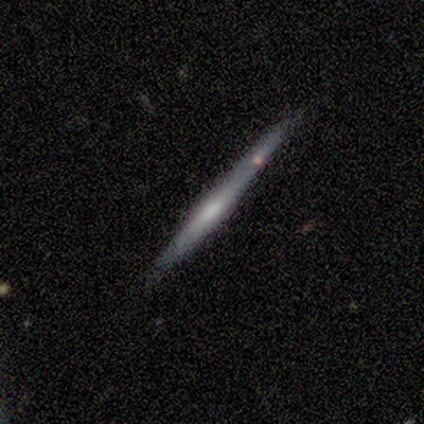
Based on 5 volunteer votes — A smooth galaxy with no disk features (60%) that is cigar-shaped (100%).

Vote fractions:
- Smooth or featured? smooth: 60% / featured or disk: 40% / star or artifact: 0%
- How rounded? cigar-shaped: 100% / round: 0% / in between: 0%
- Merging? none: 80% / minor disturbance: 20% / major disturbance: 0% / merger: 0%